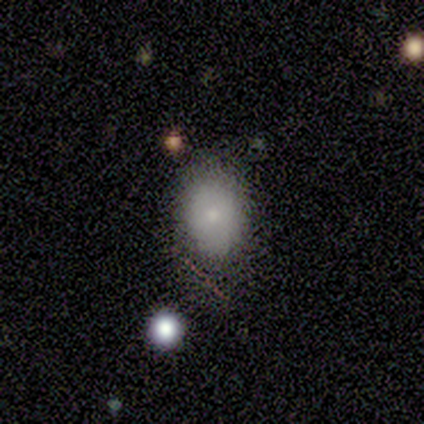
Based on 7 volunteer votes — This appears to be a smooth galaxy with no disk features (86%) that is in between round and cigar-shaped (100%). Merging: none (100%).